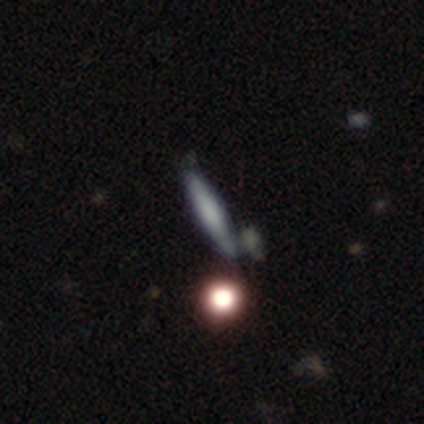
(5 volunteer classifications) smooth-or-featured: smooth: 80% | featured or disk: 20% | star or artifact: 0%
  how-rounded: cigar-shaped: 100% | round: 0% | in between: 0%
  merging: none: 60% | minor disturbance: 40% | major disturbance: 0% | merger: 0%